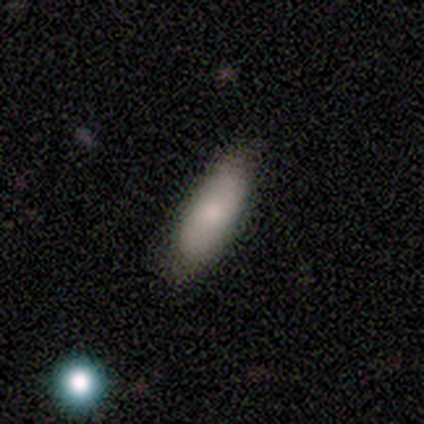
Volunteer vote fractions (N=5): smooth-or-featured: featured or disk: 60% | smooth: 40% | star or artifact: 0%
  disk-edge-on: no: 67% | yes: 33%
    bar: no: 100% | strong: 0% | weak: 0%
    has-spiral-arms: yes: 50% (tied) | no: 50% (tied)
      spiral-winding: loose: 100% | tight: 0% | medium: 0%
      spiral-arm-count: 2: 100% | 1: 0% | 3: 0% | 4: 0% | more than 4: 0% | can't tell: 0%
    bulge-size: large: 50% (tied) | small: 50% (tied) | dominant: 0% | moderate: 0% | none: 0%
  merging: none: 80% | major disturbance: 20% | minor disturbance: 0% | merger: 0%